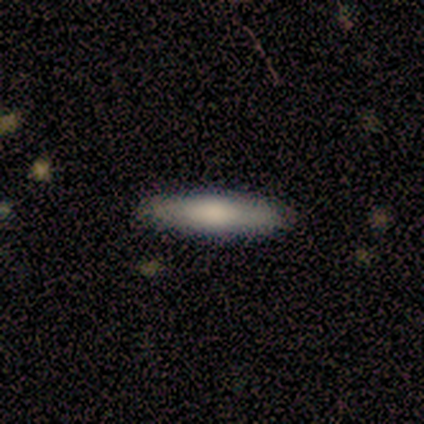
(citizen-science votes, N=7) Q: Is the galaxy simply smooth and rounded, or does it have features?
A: smooth — 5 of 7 (71%).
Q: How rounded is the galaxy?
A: cigar-shaped — 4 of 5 (80%).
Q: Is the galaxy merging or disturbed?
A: none — 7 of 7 (100%).